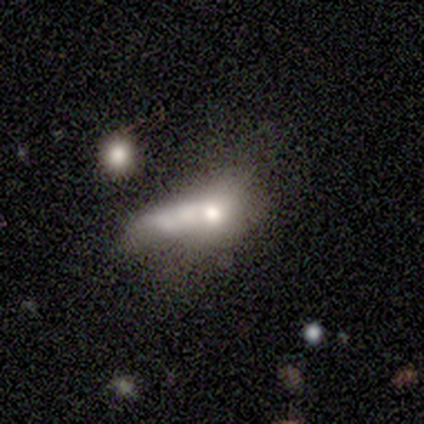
Morphology: type=featured or disk (44%); edge-on=no (100%); bar=no (85%); spiral arms=no (97%); bulge=moderate (61%); merging=merger (41%).